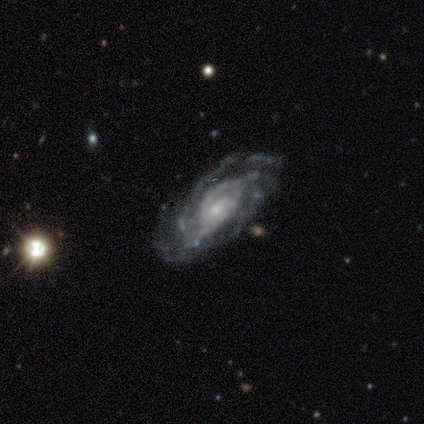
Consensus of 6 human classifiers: A featured or disk galaxy (100%) with a weak bar (67%), 3 (33%, tied with 4) medium (67%) spiral arms (100%) and a moderate central bulge (67%).

Vote fractions:
- Smooth or featured? featured or disk: 100% / smooth: 0% / star or artifact: 0%
- Edge-on disk? no: 100% / yes: 0%
- Bar? weak: 67% / no: 33% / strong: 0%
- Spiral arms? yes: 100% / no: 0%
- Spiral winding? medium: 67% / tight: 33% / loose: 0%
- Spiral arm count? 3: 33% (tied) / 4: 33% (tied) / 2: 17% / can't tell: 17% / 1: 0% / more than 4: 0%
- Bulge size? moderate: 67% / small: 33% / dominant: 0% / large: 0% / none: 0%
- Merging? none: 83% / major disturbance: 17% / minor disturbance: 0% / merger: 0%